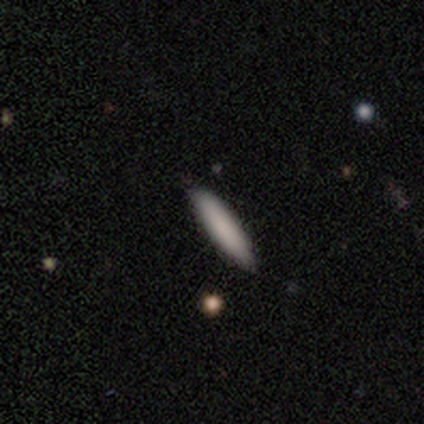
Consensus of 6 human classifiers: smooth-or-featured: smooth: 100% | featured or disk: 0% | star or artifact: 0%
  how-rounded: cigar-shaped: 83% | in between: 17% | round: 0%
  merging: none: 83% | minor disturbance: 17% | major disturbance: 0% | merger: 0%